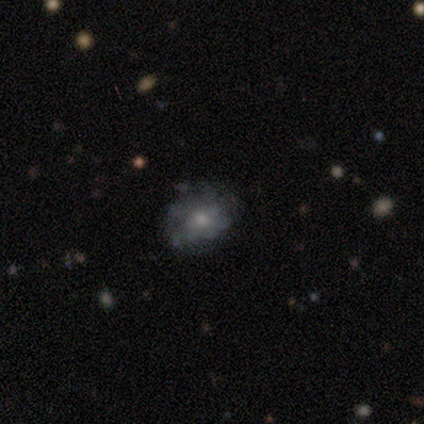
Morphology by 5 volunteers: A featured or disk galaxy (60%) with no bar (100%), no spiral arms (67%) and a moderate central bulge (67%).

Vote fractions:
- Smooth or featured? featured or disk: 60% / smooth: 20% / star or artifact: 20%
- Edge-on disk? no: 100% / yes: 0%
- Bar? no: 100% / strong: 0% / weak: 0%
- Spiral arms? no: 67% / yes: 33%
- Bulge size? moderate: 67% / small: 33% / dominant: 0% / large: 0% / none: 0%
- Merging? none: 50% (tied) / major disturbance: 50% (tied) / minor disturbance: 0% / merger: 0%